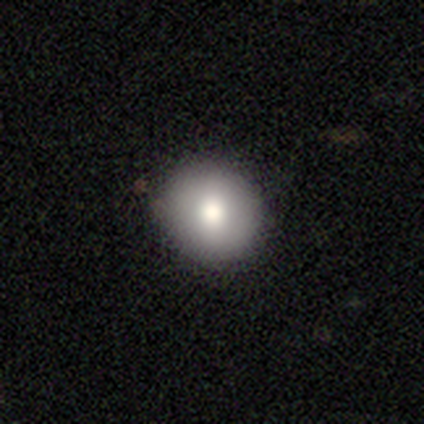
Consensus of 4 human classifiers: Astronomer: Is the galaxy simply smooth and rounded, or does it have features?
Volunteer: smooth — 100%.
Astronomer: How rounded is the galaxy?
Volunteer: round — 75%.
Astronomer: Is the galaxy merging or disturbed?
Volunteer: none — 100%.